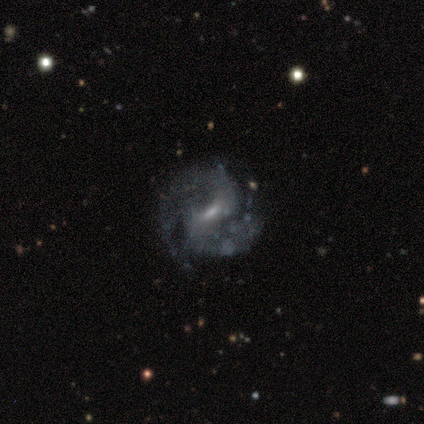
A featured or disk galaxy (90%) with a weak bar (69%), 2 (79%) medium (65%) spiral arms (97%) and a small central bulge (57%).

Vote fractions:
- Smooth or featured? featured or disk: 90% / smooth: 8% / star or artifact: 3%
- Edge-on disk? no: 100% / yes: 0%
- Bar? weak: 69% / strong: 20% / no: 11%
- Spiral arms? yes: 97% / no: 3%
- Spiral winding? medium: 65% / tight: 18% / loose: 18%
- Spiral arm count? 2: 79% / 3: 18% / 1: 3% / 4: 0% / more than 4: 0% / can't tell: 0%
- Bulge size? small: 57% / moderate: 34% / none: 6% / large: 3% / dominant: 0%
- Merging? none: 71% / minor disturbance: 21% / major disturbance: 8% / merger: 0%